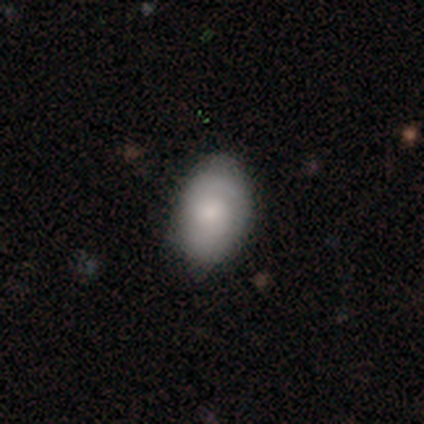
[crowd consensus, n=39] This is likely a smooth galaxy (69%). How rounded: likely in between (78%). Merging: likely none (75%).